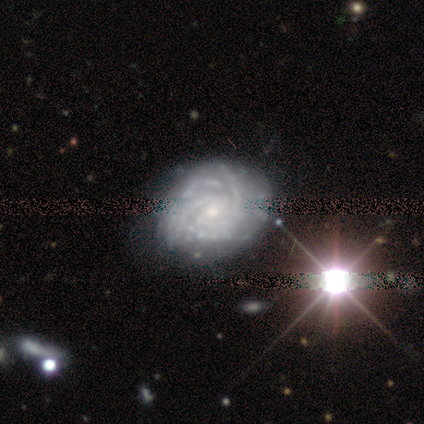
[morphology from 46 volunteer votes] Smooth or featured: featured or disk — 83% (star or artifact — 13%)
Edge-on disk: no — 95% (yes — 5%)
Bar: no — 58% (weak — 36%)
Spiral arms: yes — 92% (no — 8%)
Spiral winding: tight — 85% (medium — 12%)
Spiral arm count: more than 4 — 39% (can't tell — 27%)
Bulge size: small — 72% (moderate — 22%)
Merging: none — 68% (minor disturbance — 28%)